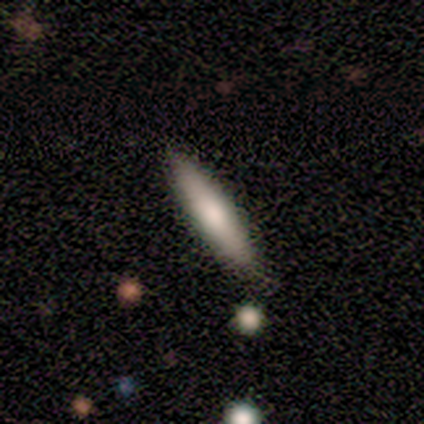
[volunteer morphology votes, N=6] Smooth or featured?
  - smooth: 50% * (tied)
  - featured or disk: 50% * (tied)
  - star or artifact: 0%
How rounded?
  - cigar-shaped: 100% *
  - round: 0%
  - in between: 0%
Merging?
  - none: 83% *
  - minor disturbance: 17%
  - major disturbance: 0%
  - merger: 0%